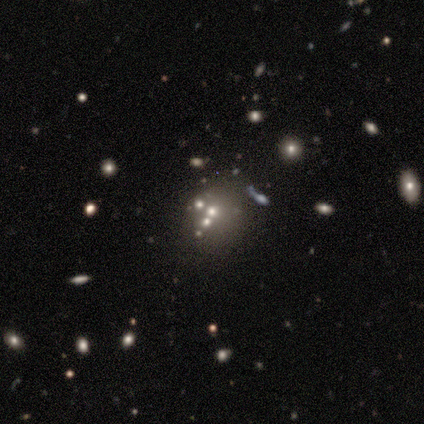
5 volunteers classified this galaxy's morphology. Smooth or featured: smooth — 40% (tied with star or artifact — 40%)
How rounded: round — 100%
Merging: merger — 100%